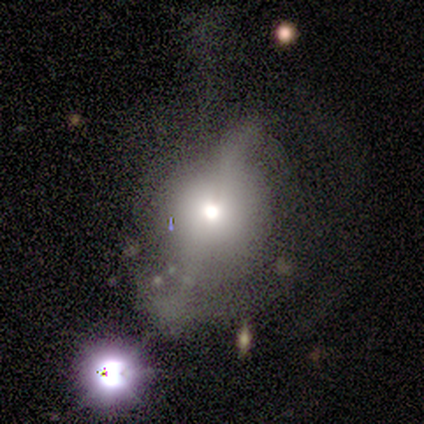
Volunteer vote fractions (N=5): Morphology: type=featured or disk (60%); edge-on=no (67%); bar=strong (50%, tied with no); spiral arms=no (100%); bulge=moderate (100%); merging=none (75%).